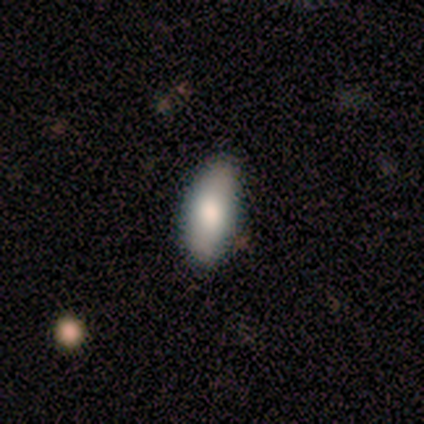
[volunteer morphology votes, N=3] smooth 67%, featured or disk 33%, star or artifact 0%. Down the decision tree: how rounded — in between (100%); merging — none (100%).